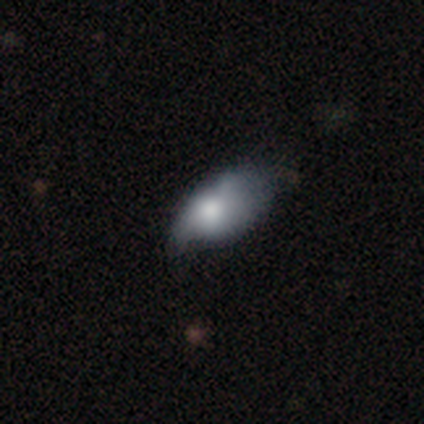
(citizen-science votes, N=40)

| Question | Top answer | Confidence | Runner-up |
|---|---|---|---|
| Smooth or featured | smooth | 62% | featured or disk (38%) |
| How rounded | in between | 84% | round (8%) |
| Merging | major disturbance | 35% | none (20%) |